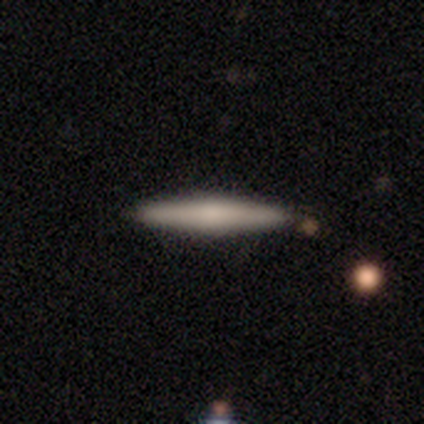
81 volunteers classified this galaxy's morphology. smooth-or-featured: smooth: 62% | featured or disk: 36% | star or artifact: 2%
  how-rounded: cigar-shaped: 98% | in between: 2% | round: 0%
  merging: none: 89% | minor disturbance: 10% | merger: 1% | major disturbance: 0%